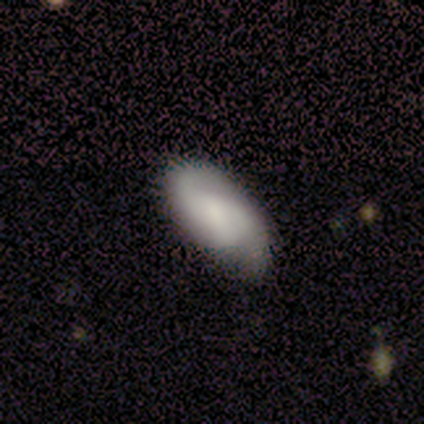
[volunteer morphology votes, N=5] Smooth or featured? smooth (60%)
How rounded? in between (67%)
Merging? none (60%)